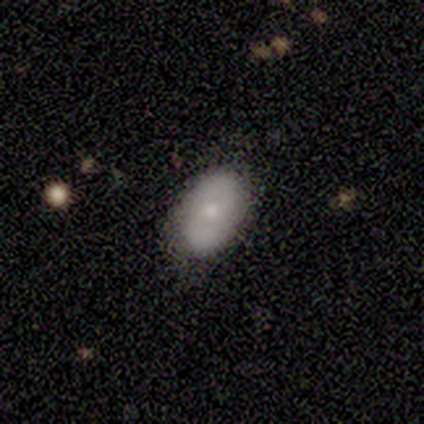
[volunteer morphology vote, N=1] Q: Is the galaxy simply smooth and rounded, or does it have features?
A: smooth — 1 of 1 (100%).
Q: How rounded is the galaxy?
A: in between — 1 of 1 (100%).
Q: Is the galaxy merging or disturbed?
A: minor disturbance — 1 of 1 (100%).